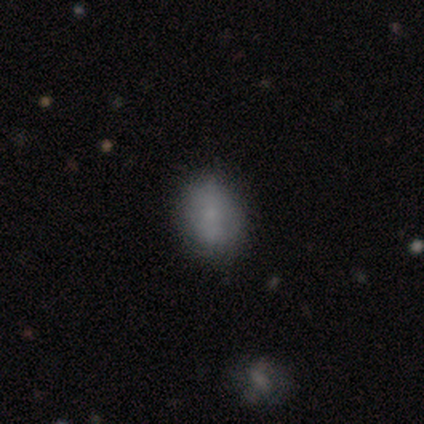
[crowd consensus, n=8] A smooth galaxy with no disk features (88%) that is in between round and cigar-shaped (71%).

Vote fractions:
- Smooth or featured? smooth: 88% / featured or disk: 12% / star or artifact: 0%
- How rounded? in between: 71% / round: 29% / cigar-shaped: 0%
- Merging? none: 62% / minor disturbance: 25% / major disturbance: 12% / merger: 0%